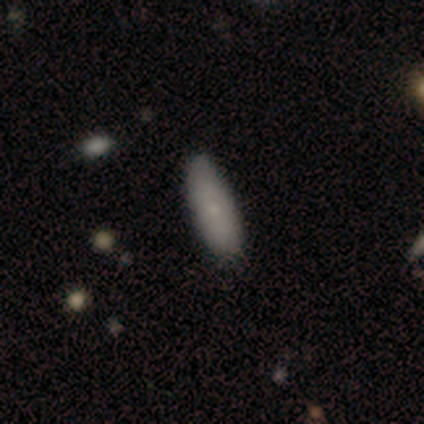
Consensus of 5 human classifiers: Smooth or featured?
  - smooth: 40% * (tied)
  - featured or disk: 40% * (tied)
  - star or artifact: 20%
How rounded?
  - in between: 100% *
  - round: 0%
  - cigar-shaped: 0%
Merging?
  - none: 75% *
  - merger: 25%
  - minor disturbance: 0%
  - major disturbance: 0%